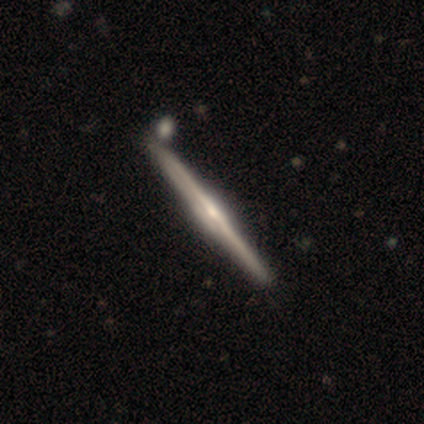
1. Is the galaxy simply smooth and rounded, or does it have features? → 100% featured or disk, 0% smooth, 0% star or artifact.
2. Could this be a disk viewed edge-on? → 97% yes, 3% no.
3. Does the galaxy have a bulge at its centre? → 62% rounded, 22% none, 16% boxy.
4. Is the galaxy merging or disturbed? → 53% none, 11% minor disturbance, 11% merger, 0% major disturbance.